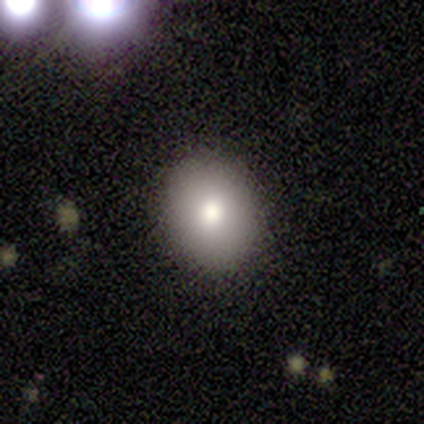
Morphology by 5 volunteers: Smooth or featured?
  - smooth: 60% *
  - star or artifact: 40%
  - featured or disk: 0%
How rounded?
  - in between: 100% *
  - round: 0%
  - cigar-shaped: 0%
Merging?
  - none: 100% *
  - minor disturbance: 0%
  - major disturbance: 0%
  - merger: 0%